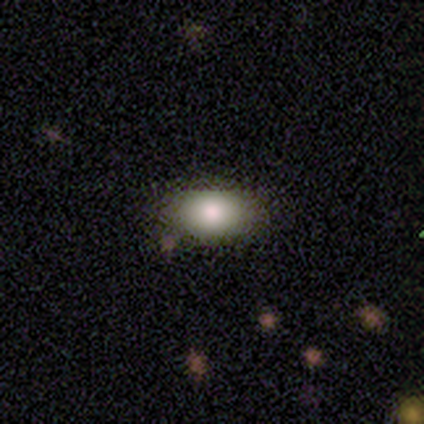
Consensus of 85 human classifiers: Volunteers were most divided on "merging": none: 87%, minor disturbance: 13%, major disturbance: 0%, merger: 0%. More confident: how rounded — in between (90%); smooth or featured — smooth (84%).